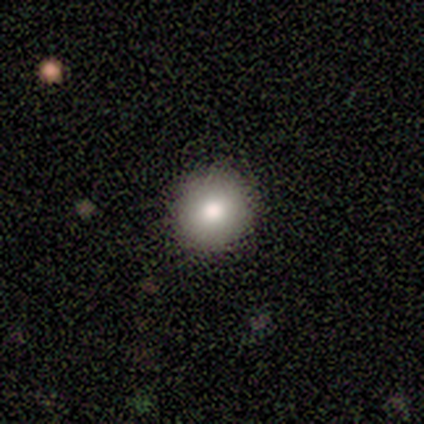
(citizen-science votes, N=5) smooth_or_featured: smooth (p=1.00)
how_rounded: round (p=1.00)
merging: none (p=0.80) [alt: major disturbance p=0.20]